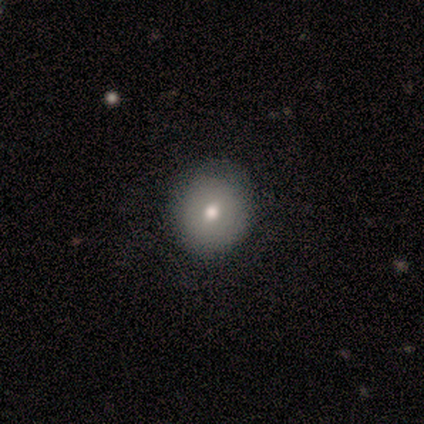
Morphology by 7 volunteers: Smooth or featured?
  - smooth: 71% *
  - featured or disk: 29%
  - star or artifact: 0%
How rounded?
  - round: 80% *
  - in between: 20%
  - cigar-shaped: 0%
Merging?
  - none: 86% *
  - minor disturbance: 14%
  - major disturbance: 0%
  - merger: 0%